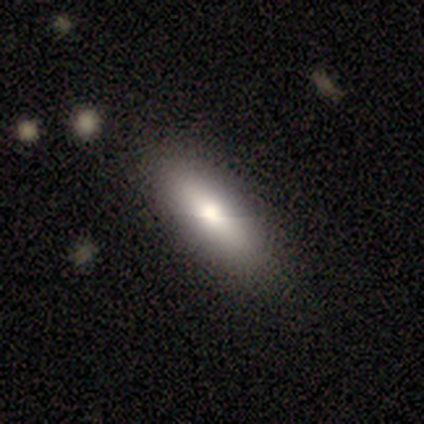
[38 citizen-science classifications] Overall: smooth (66%). How rounded: in between (64%; cigar-shaped 32%). Merging: none (88%).